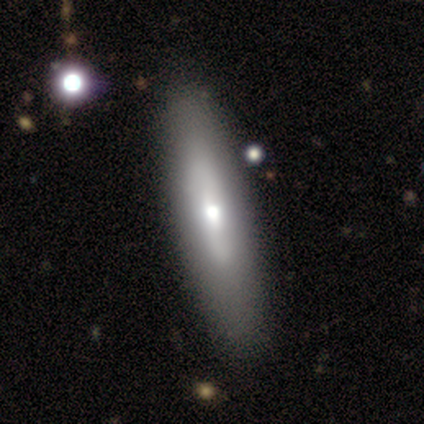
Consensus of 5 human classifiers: Volunteers were most divided on "smooth or featured": smooth: 60%, featured or disk: 40%, star or artifact: 0%. More confident: how rounded — cigar-shaped (100%); merging — none (80%).